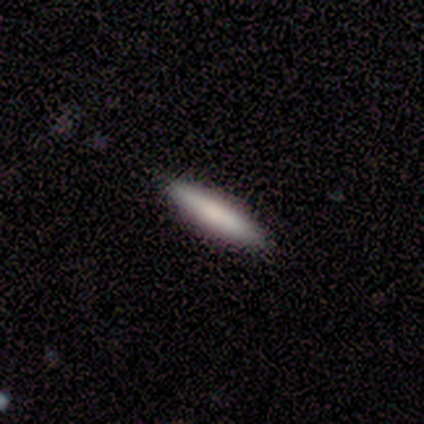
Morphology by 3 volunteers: smooth 100%, featured or disk 0%, star or artifact 0%. Down the decision tree: how rounded — cigar-shaped (67%); merging — none (67%).